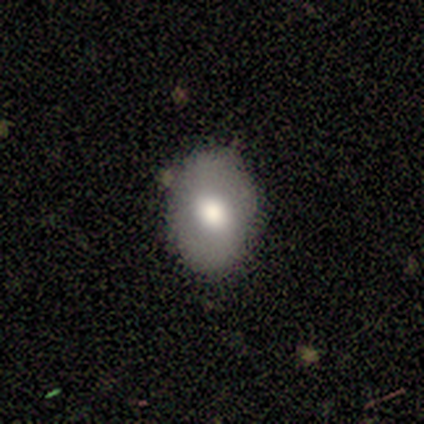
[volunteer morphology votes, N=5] Q: Smooth or featured?
A: smooth (100%)
Q: How rounded?
A: in between (80%); runner-up: round (20%)
Q: Merging?
A: none (100%)